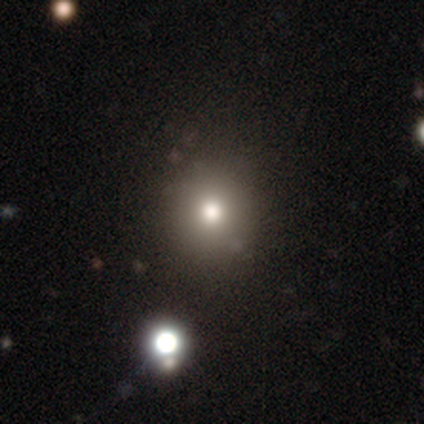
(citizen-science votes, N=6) Overall: smooth (50%; featured or disk 33%). How rounded: round (100%). Merging: minor disturbance (40%; none 20%).